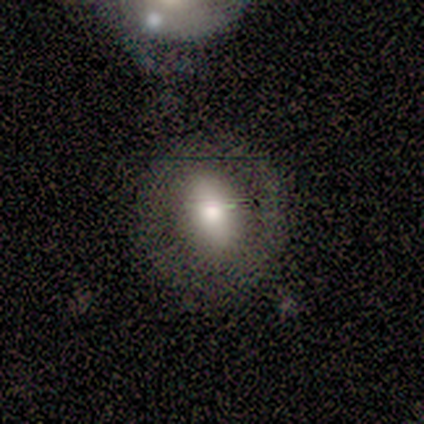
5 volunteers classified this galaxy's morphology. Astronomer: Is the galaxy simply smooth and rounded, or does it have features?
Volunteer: featured or disk — 60% (runner-up: smooth, 40%).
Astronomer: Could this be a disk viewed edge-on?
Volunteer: no — 100%.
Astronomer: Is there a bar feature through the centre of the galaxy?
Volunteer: weak — 67%.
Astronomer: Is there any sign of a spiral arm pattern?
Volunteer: no — 100%.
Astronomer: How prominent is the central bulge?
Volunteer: large — 67%.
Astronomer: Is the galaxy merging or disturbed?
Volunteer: none — 60% (runner-up: minor disturbance, 40%).